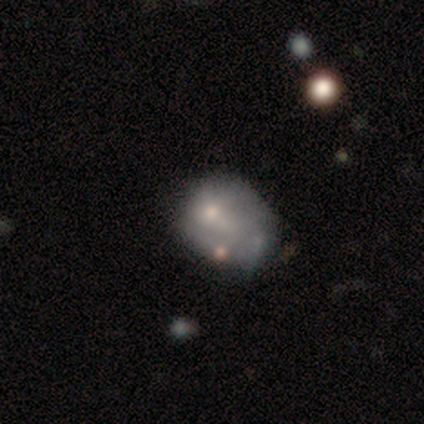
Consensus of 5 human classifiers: This is clearly a smooth galaxy (80%). How rounded: possibly round (50%, tied with in between). Merging: possibly minor disturbance (50%).